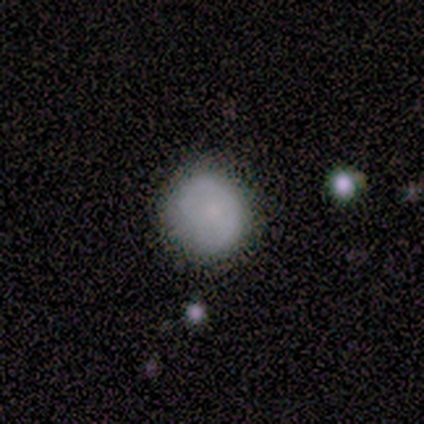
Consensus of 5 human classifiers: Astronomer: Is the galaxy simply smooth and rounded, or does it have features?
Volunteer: smooth — 80%.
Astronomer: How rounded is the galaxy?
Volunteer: round — 75%.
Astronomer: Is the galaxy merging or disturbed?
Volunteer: minor disturbance — 60% (runner-up: none, 40%).